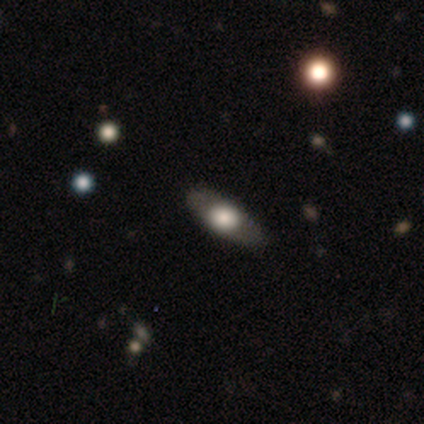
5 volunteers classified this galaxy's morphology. Smooth or featured? featured or disk (80%)
Edge-on disk? no (100%)
Bar? no (100%)
Spiral arms? no (100%)
Bulge size? large (75%)
Merging? none (100%)